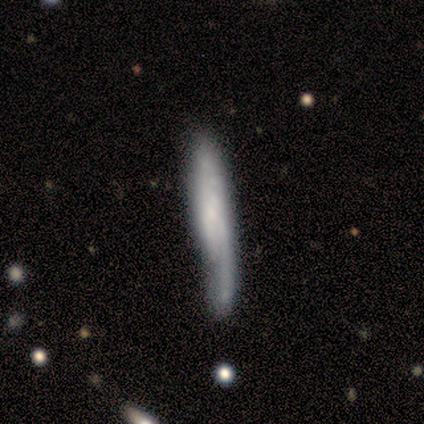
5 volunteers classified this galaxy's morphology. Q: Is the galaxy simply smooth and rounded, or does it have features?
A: featured or disk — 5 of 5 (100%).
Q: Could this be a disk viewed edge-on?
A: yes — 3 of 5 (60%).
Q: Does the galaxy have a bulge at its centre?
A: none — 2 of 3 (67%).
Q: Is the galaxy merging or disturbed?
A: minor disturbance — 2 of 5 (40%, tied with major disturbance).